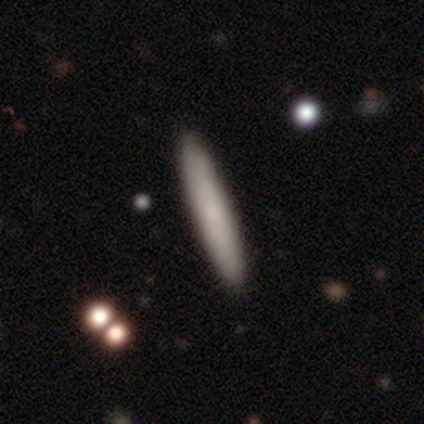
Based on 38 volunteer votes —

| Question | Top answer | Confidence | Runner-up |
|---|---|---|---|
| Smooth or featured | smooth | 68% | featured or disk (26%) |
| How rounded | cigar-shaped | 100% | — |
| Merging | none | 86% | minor disturbance (11%) |